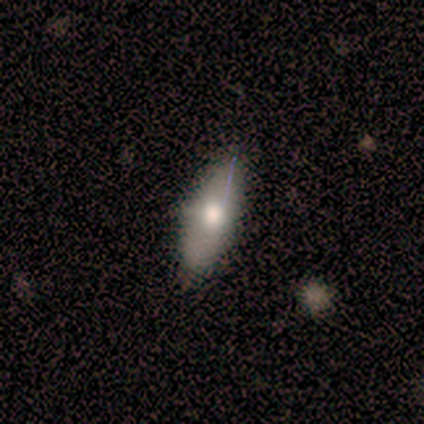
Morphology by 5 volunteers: This appears to be a smooth galaxy with no disk features (80%) that is in between round and cigar-shaped (100%). Merging: none (80%).